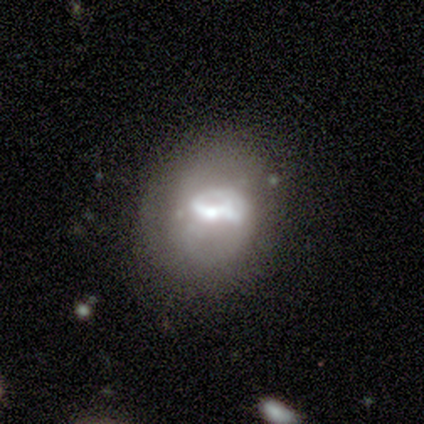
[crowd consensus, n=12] Overall: featured or disk (67%; smooth 33%). Edge-on disk: no (88%). Bar: no (71%). Spiral arms: no (86%). Bulge size: small (71%). Merging: none (58%; minor disturbance 25%).